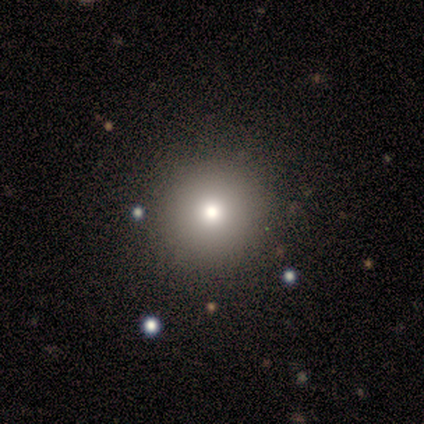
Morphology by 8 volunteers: smooth-or-featured: smooth: 62% | star or artifact: 25% | featured or disk: 12%
  how-rounded: round: 100% | in between: 0% | cigar-shaped: 0%
  merging: none: 83% | minor disturbance: 17% | major disturbance: 0% | merger: 0%